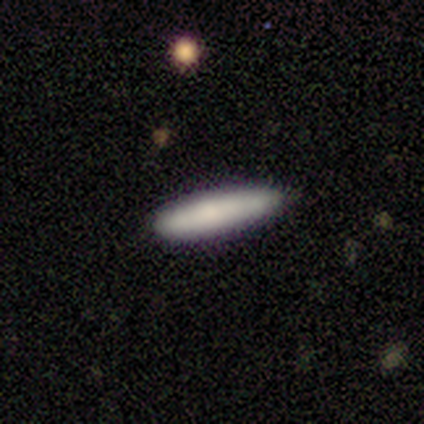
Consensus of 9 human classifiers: This appears to be a smooth galaxy with no disk features (78%) that is cigar-shaped (86%). Merging: none (62%).